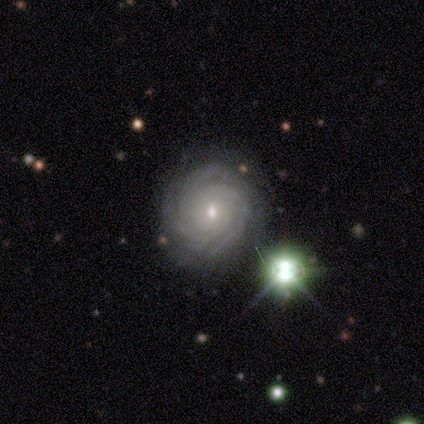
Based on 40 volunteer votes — Overall: featured or disk (90%). Edge-on disk: no (97%). Bar: no (71%). Spiral arms: yes (94%). Spiral arm count: can't tell (36%; 3 27%). Spiral winding: tight (94%). Bulge size: small (69%; moderate 31%). Merging: none (81%).